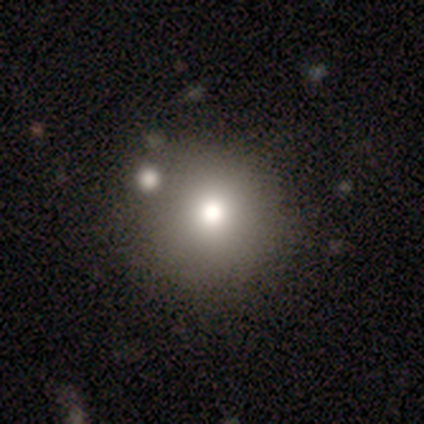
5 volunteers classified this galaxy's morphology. A smooth galaxy with no disk features (80%) that is round (100%).

Vote fractions:
- Smooth or featured? smooth: 80% / featured or disk: 20% / star or artifact: 0%
- How rounded? round: 100% / in between: 0% / cigar-shaped: 0%
- Merging? none: 60% / minor disturbance: 20% / major disturbance: 20% / merger: 0%